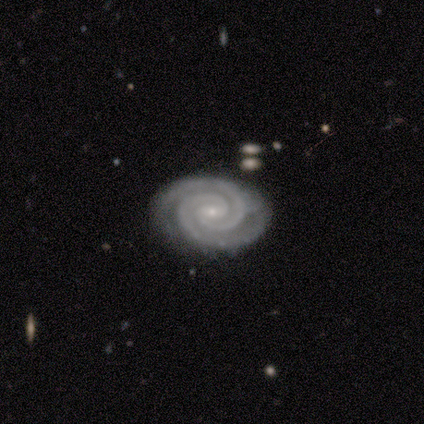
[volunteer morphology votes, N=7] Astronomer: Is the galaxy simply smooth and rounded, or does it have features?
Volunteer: featured or disk — 71%.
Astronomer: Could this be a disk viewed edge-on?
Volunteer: no — 100%.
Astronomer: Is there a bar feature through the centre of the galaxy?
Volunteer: no — 60%.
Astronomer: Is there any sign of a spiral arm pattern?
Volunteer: yes — 100%.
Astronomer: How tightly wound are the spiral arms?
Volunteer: tight — 100%.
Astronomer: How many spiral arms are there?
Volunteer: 2 — 100%.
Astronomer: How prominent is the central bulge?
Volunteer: small — 80%.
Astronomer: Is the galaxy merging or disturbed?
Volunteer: none — 86%.